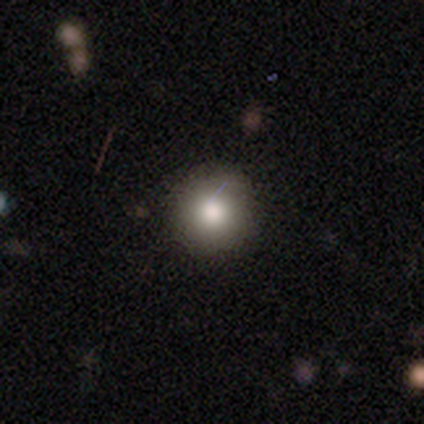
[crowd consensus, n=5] Morphology: type=smooth (80%); roundness=round (100%); merging=none (100%).